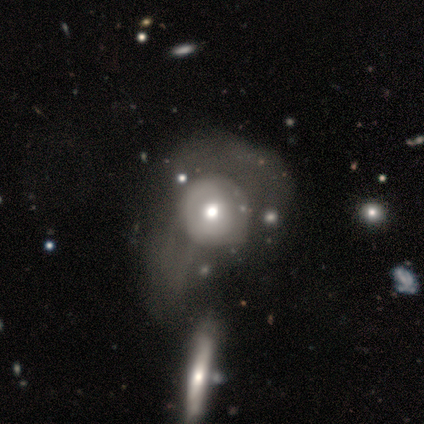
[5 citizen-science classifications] Overall: featured or disk (80%). Edge-on disk: no (100%). Bar: no (75%). Spiral arms: no (75%). Bulge size: moderate (75%). Merging: merger (60%; minor disturbance 20%).